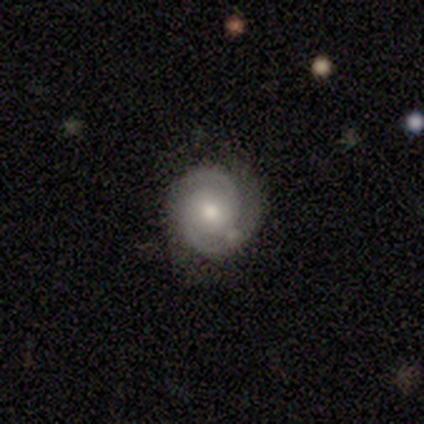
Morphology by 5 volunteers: type=featured or disk (80%); edge-on=no (100%); bar=weak (50%, tied with no); spiral arms=yes (100%); winding=tight (75%); arm count=2 (100%); bulge=moderate (50%, tied with small); merging=none (60%).